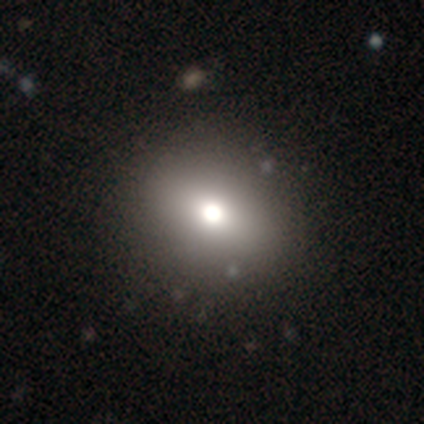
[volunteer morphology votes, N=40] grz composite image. It shows a smooth galaxy with no disk features (65%) that is round (77%). Merging: none (88%).